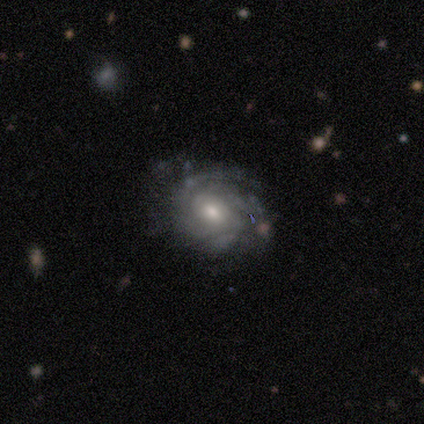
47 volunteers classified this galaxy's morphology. Smooth or featured: featured or disk — 79% (smooth — 15%)
Edge-on disk: no — 97% (yes — 3%)
Bar: no — 67% (weak — 28%)
Spiral arms: yes — 94% (no — 6%)
Spiral winding: tight — 71% (medium — 21%)
Spiral arm count: can't tell — 41% (2 — 21%)
Bulge size: moderate — 64% (small — 19%)
Merging: none — 70% (minor disturbance — 23%)